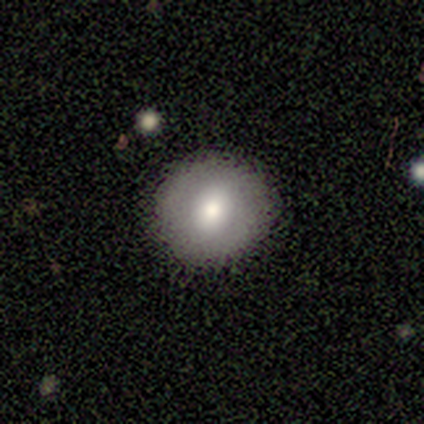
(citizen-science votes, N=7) This appears to be a smooth galaxy with no disk features (71%) that is round (100%). Merging: none (100%).